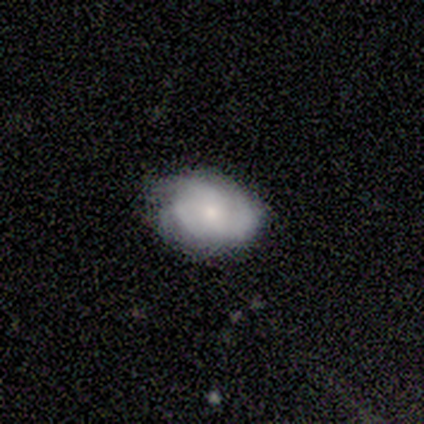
Volunteers were most divided on "smooth or featured": smooth: 60%, featured or disk: 40%, star or artifact: 0%. More confident: how rounded — in between (100%); merging — none (80%).